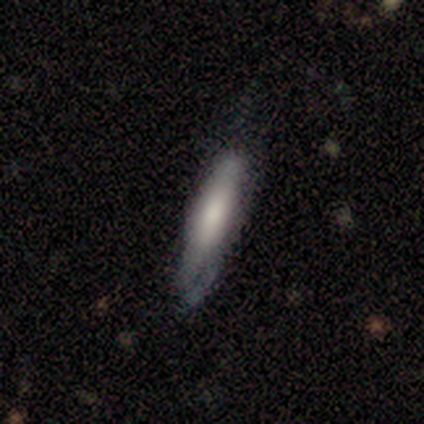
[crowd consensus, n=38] This is possibly a smooth galaxy (55%). How rounded: clearly cigar-shaped (81%). Merging: possibly none (51%).